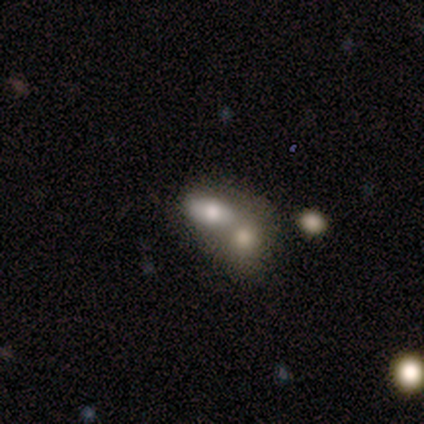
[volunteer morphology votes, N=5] This appears to be a smooth galaxy with no disk features (80%) that is in between round and cigar-shaped (100%). Merging: merger (60%).